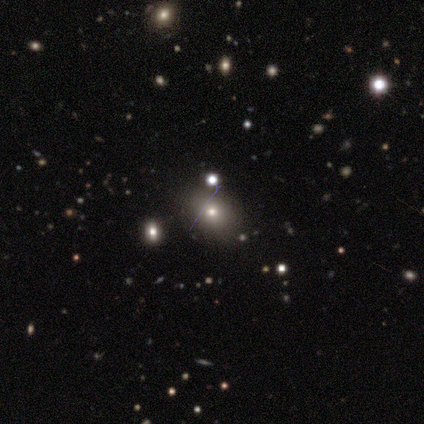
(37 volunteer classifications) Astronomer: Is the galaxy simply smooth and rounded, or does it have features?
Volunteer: smooth — 65%.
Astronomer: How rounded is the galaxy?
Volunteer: in between — 62%.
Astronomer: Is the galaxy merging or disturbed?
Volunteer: none — 80%.